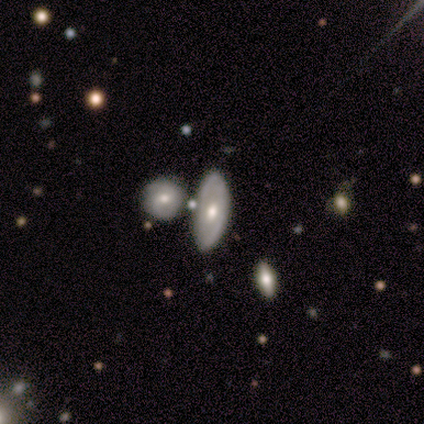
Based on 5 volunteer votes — A featured or disk galaxy (60%) with no bar (100%), no spiral arms (100%) and a moderate central bulge (50%, tied with small).

Vote fractions:
- Smooth or featured? featured or disk: 60% / smooth: 40% / star or artifact: 0%
- Edge-on disk? no: 67% / yes: 33%
- Bar? no: 100% / strong: 0% / weak: 0%
- Spiral arms? no: 100% / yes: 0%
- Bulge size? moderate: 50% (tied) / small: 50% (tied) / dominant: 0% / large: 0% / none: 0%
- Merging? none: 40% / minor disturbance: 20% / major disturbance: 20% / merger: 20%